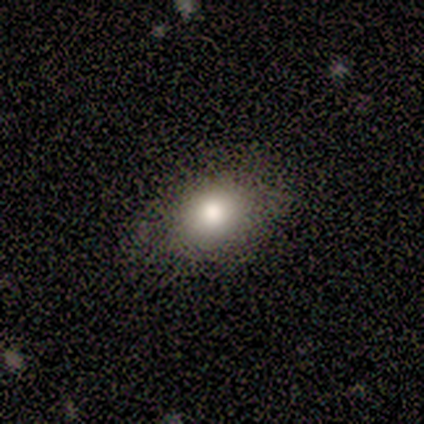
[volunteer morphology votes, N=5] type=smooth (100%); roundness=in between (100%); merging=none (80%).